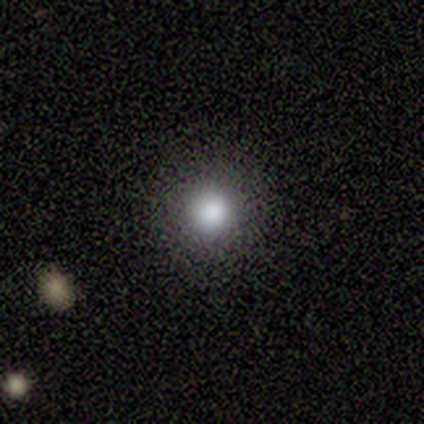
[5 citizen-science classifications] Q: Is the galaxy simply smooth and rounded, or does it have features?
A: smooth — 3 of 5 (60%).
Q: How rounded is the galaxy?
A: round — 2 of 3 (67%).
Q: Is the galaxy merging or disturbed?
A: none — 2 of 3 (67%).